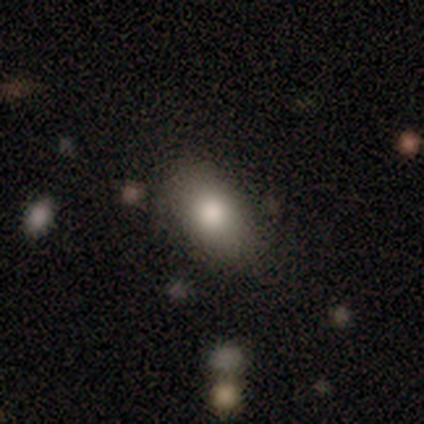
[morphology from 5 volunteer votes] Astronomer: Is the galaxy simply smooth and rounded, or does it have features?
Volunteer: smooth — 40%, tied with featured or disk at 40%.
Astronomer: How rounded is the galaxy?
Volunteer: round — 50%, tied with in between at 50%.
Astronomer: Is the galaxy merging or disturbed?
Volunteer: none — 100%.